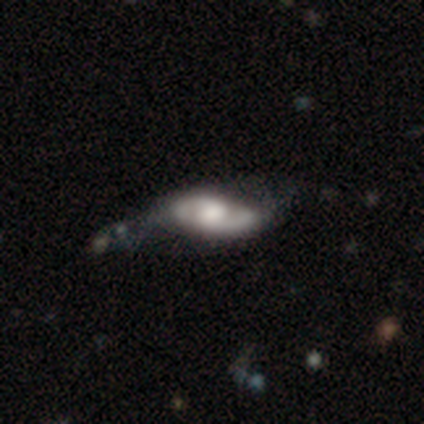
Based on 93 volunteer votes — This appears to be a featured or disk galaxy (75%) with no bar (59%), 2 (82%) medium (53%) spiral arms (77%) and a moderate central bulge (45%). Merging: none (40%).